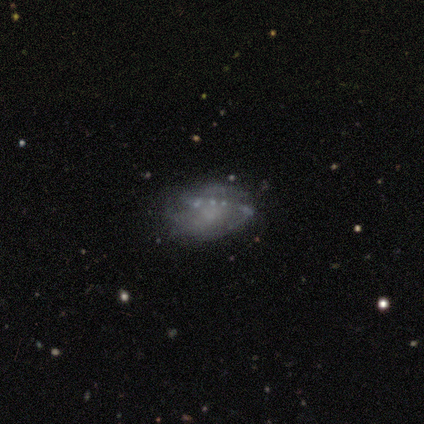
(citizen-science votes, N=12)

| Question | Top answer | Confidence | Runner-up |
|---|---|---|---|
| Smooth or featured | featured or disk | 50% | smooth (42%) |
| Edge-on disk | no | 100% | — |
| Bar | no | 83% | weak (17%) |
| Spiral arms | yes | 67% | no (33%) |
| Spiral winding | medium | 50% | tight (25%) |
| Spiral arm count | can't tell | 50% | 2 (25%) |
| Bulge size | small | 50% | tied: none (50%) |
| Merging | none | 64% | minor disturbance (18%) |